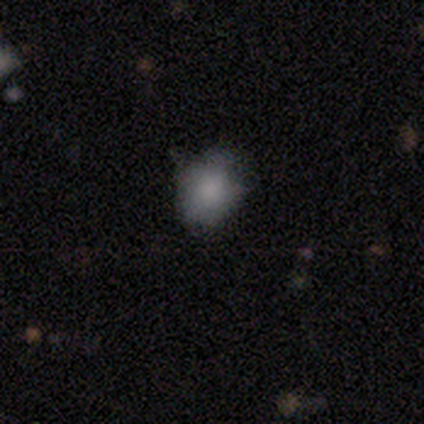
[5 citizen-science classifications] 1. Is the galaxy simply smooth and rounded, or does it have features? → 100% smooth, 0% featured or disk, 0% star or artifact.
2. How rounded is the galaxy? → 60% round, 40% in between, 0% cigar-shaped.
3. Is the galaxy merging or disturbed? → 80% none, 20% minor disturbance, 0% major disturbance, 0% merger.